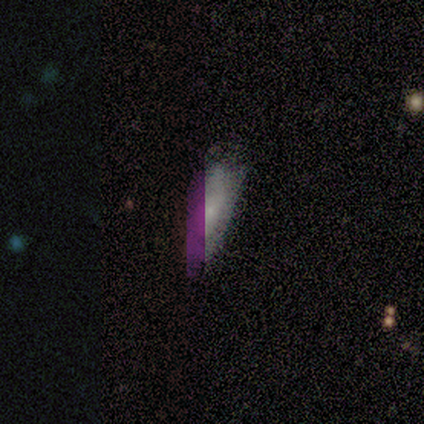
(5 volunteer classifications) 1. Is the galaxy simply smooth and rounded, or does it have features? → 60% smooth, 20% featured or disk, 20% star or artifact.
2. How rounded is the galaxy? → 67% cigar-shaped, 33% in between, 0% round.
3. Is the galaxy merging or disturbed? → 75% none, 25% major disturbance, 0% minor disturbance, 0% merger.